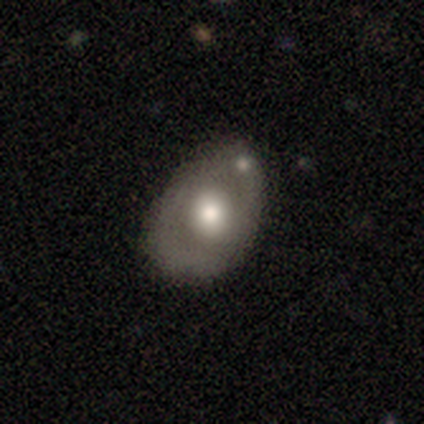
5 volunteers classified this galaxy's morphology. A smooth galaxy with no disk features (60%) that is in between round and cigar-shaped (100%). Merging: none (100%).